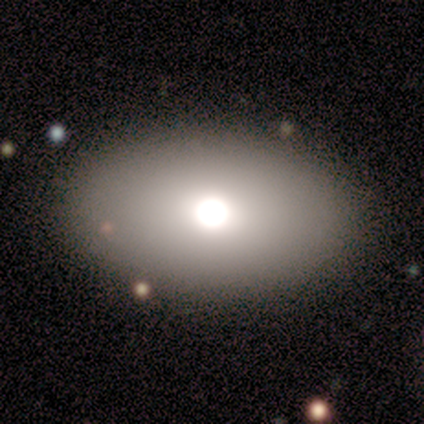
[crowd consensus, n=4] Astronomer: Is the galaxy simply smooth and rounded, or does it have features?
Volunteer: smooth — 50%.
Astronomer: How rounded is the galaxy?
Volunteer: in between — 100%.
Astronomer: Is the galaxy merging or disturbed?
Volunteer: none — 100%.